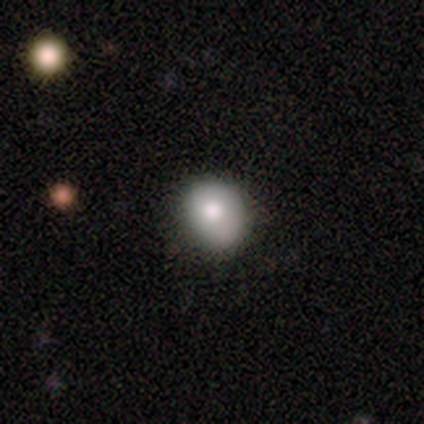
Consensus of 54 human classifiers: smooth-or-featured: smooth: 81% | featured or disk: 17% | star or artifact: 2%
  how-rounded: round: 61% | in between: 39% | cigar-shaped: 0%
  merging: none: 62% | minor disturbance: 38% | major disturbance: 0% | merger: 0%